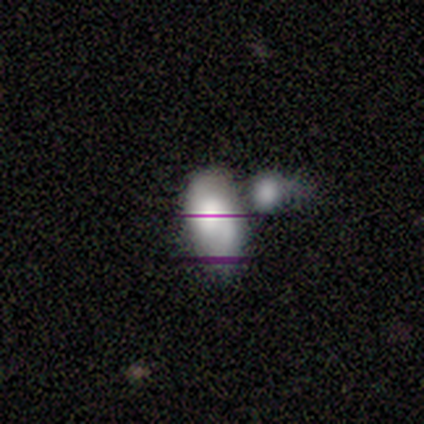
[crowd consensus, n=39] Q: Smooth or featured?
A: smooth (54%); runner-up: featured or disk (23%)
Q: How rounded?
A: in between (95%); runner-up: round (5%)
Q: Merging?
A: merger (50%); runner-up: none (23%)